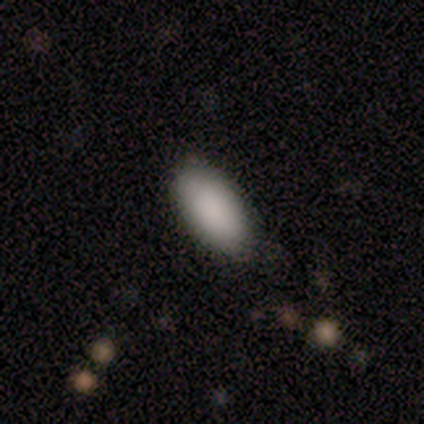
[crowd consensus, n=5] Smooth or featured: smooth — 100%
How rounded: in between — 100%
Merging: none — 80% (minor disturbance — 20%)